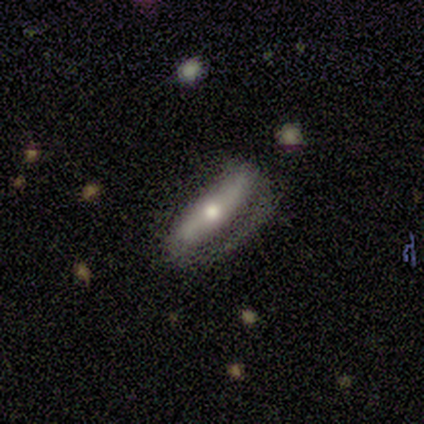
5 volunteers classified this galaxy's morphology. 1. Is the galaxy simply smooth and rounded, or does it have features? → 60% featured or disk, 40% smooth, 0% star or artifact.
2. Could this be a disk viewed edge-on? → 67% no, 33% yes.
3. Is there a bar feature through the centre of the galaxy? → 100% no, 0% strong, 0% weak.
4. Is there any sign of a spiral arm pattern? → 50% yes (tied), 50% no (tied).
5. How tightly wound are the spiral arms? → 100% tight, 0% medium, 0% loose.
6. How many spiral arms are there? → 100% can't tell, 0% 1, 0% 2, 0% 3, 0% 4, 0% more than 4.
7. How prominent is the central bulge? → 100% small, 0% dominant, 0% large, 0% moderate, 0% none.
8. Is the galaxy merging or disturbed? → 60% major disturbance, 20% none, 20% minor disturbance, 0% merger.